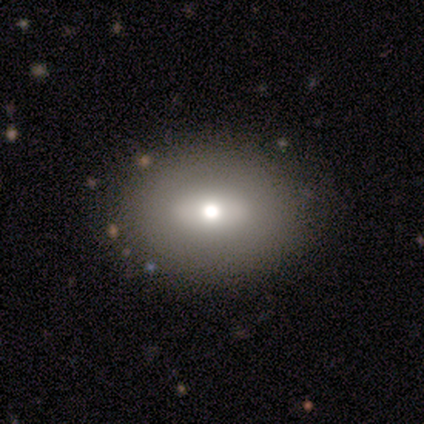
Smooth or featured? smooth (100%)
How rounded? in between (100%)
Merging? none (80%)